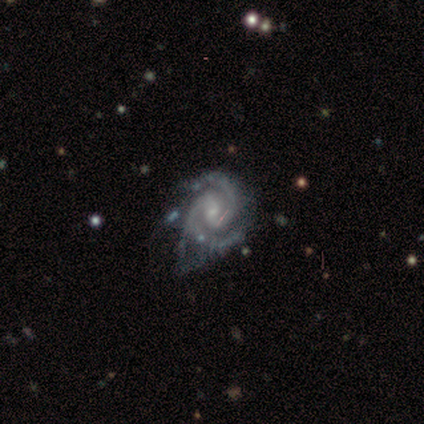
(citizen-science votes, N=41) This is clearly a featured or disk galaxy (93%). It is clearly not viewed edge-on (100%). Bar: possibly weak (58%). Spiral arm pattern: clearly yes (100%). Spiral arm count: clearly 2 (87%). Spiral winding: possibly medium (50%). Central bulge: likely small (74%). Merging: marginally none (39%).